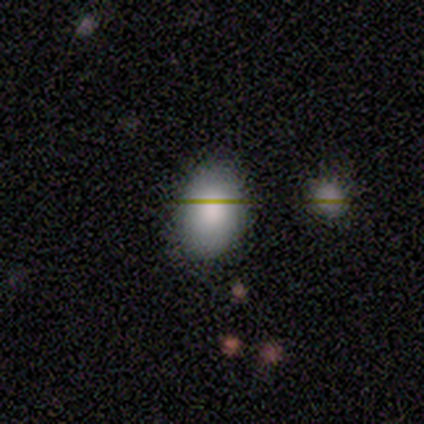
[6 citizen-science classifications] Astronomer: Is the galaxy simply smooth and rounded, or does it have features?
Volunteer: smooth — 100%.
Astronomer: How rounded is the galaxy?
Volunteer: in between — 67%.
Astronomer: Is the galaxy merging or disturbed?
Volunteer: none — 100%.